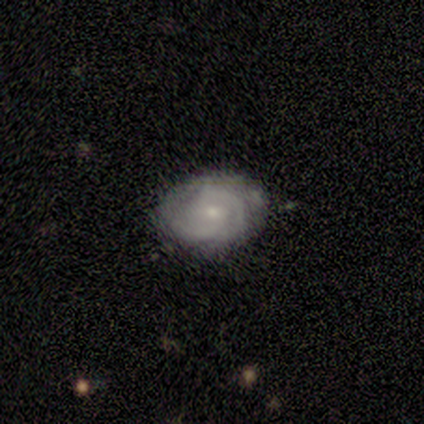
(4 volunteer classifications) A featured or disk galaxy (75%) with a weak bar (67%), 2 (33%, tied with 3 and can't tell) tight (100%) spiral arms (100%) and a small central bulge (67%). Merging: none (75%).